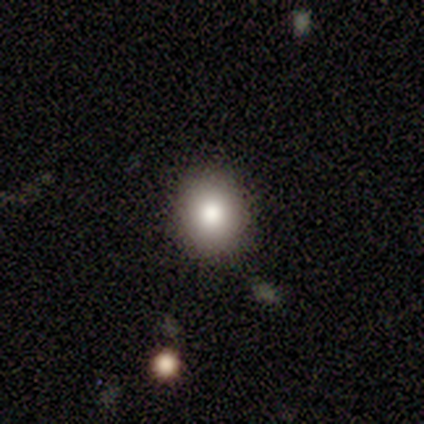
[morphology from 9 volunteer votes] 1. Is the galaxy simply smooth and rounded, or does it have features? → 78% smooth, 22% featured or disk, 0% star or artifact.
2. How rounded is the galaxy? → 71% round, 29% in between, 0% cigar-shaped.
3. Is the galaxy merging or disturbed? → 89% none, 11% merger, 0% minor disturbance, 0% major disturbance.